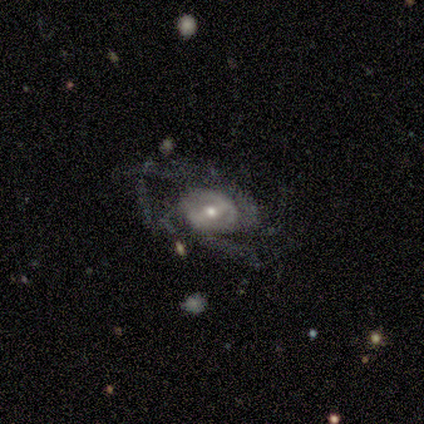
A featured or disk galaxy (80%) with no bar (100%), 2 (50%) loose (75%) spiral arms (100%) and a moderate central bulge (75%).

Vote fractions:
- Smooth or featured? featured or disk: 80% / star or artifact: 20% / smooth: 0%
- Edge-on disk? no: 100% / yes: 0%
- Bar? no: 100% / strong: 0% / weak: 0%
- Spiral arms? yes: 100% / no: 0%
- Spiral winding? loose: 75% / medium: 25% / tight: 0%
- Spiral arm count? 2: 50% / 4: 25% / can't tell: 25% / 1: 0% / 3: 0% / more than 4: 0%
- Bulge size? moderate: 75% / small: 25% / dominant: 0% / large: 0% / none: 0%
- Merging? none: 50% / minor disturbance: 25% / major disturbance: 25% / merger: 0%